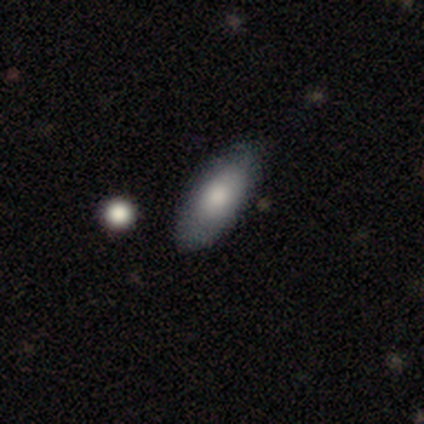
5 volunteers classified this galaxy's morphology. smooth_or_featured: smooth (p=0.80) [alt: featured or disk p=0.20]
how_rounded: in between (p=1.00)
merging: none (p=1.00)